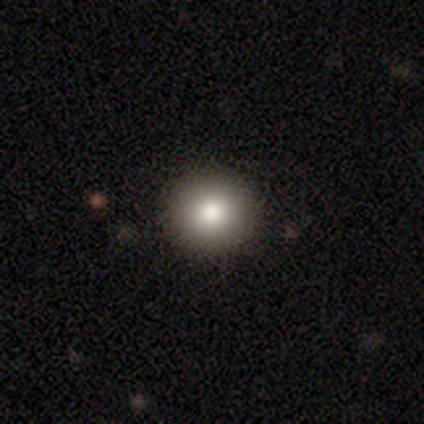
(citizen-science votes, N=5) Smooth or featured?
  - smooth: 80% *
  - featured or disk: 20%
  - star or artifact: 0%
How rounded?
  - round: 100% *
  - in between: 0%
  - cigar-shaped: 0%
Merging?
  - none: 80% *
  - minor disturbance: 20%
  - major disturbance: 0%
  - merger: 0%